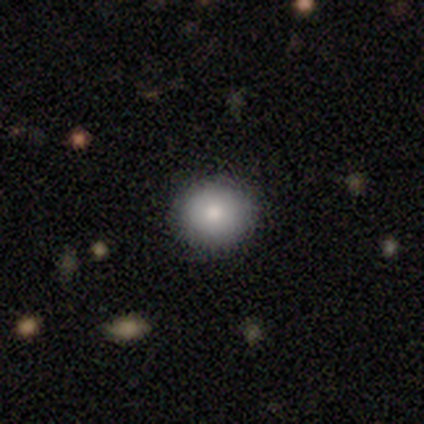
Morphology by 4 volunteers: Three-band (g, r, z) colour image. It shows a smooth galaxy with no disk features (100%) that is round (75%). Merging: none (75%).